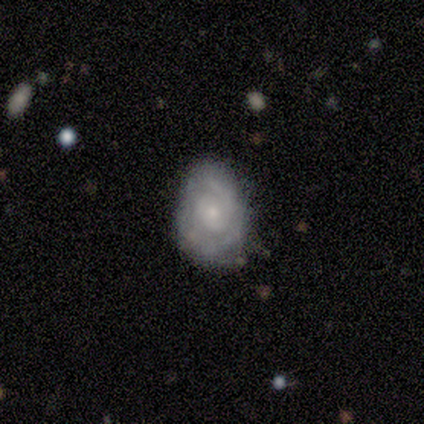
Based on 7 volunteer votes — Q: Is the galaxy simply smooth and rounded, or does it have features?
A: featured or disk — 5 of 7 (71%).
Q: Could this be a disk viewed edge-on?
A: no — 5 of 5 (100%).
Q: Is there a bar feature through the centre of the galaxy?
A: no — 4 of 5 (80%).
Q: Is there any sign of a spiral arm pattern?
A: yes — 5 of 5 (100%).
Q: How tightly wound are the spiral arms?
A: tight — 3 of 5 (60%).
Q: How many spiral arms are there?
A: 2 — 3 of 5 (60%).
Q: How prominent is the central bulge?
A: small — 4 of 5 (80%).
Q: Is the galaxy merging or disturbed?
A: none — 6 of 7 (86%).